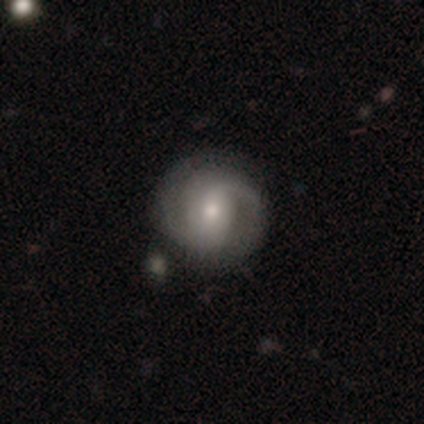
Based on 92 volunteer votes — A featured or disk galaxy (73%) with no bar (51%), 2 (83%) medium (48%) spiral arms (92%) and a moderate central bulge (48%). Merging: none (76%).